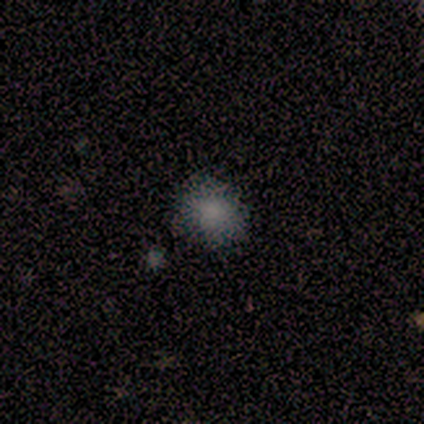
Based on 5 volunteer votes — Smooth or featured: smooth — 80% (featured or disk — 20%)
How rounded: round — 75% (in between — 25%)
Merging: none — 60% (minor disturbance — 40%)